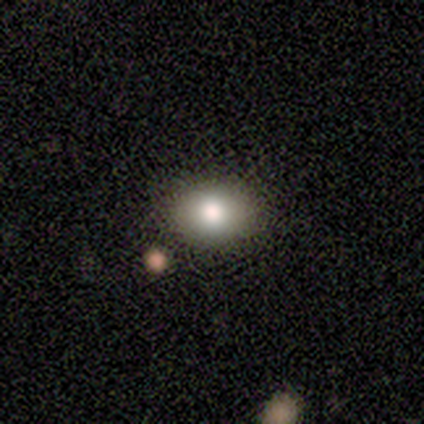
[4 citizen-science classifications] This is likely a smooth galaxy (75%). How rounded: likely in between (67%). Merging: clearly none (100%).